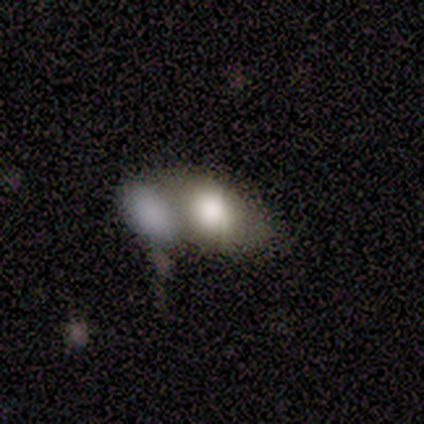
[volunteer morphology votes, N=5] This appears to be a smooth galaxy with no disk features (80%) that is in between round and cigar-shaped (75%). Merging: merger (80%).